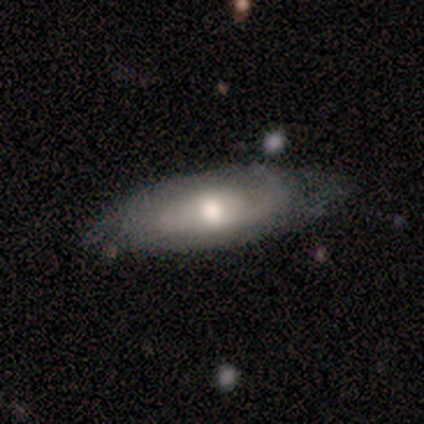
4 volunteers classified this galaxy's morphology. Volunteers were most divided on "smooth or featured" (2-way tie): smooth: 50%, featured or disk: 50%, star or artifact: 0%; "how rounded" (2-way tie): round: 50%, in between: 50%, cigar-shaped: 0%. More confident: merging — minor disturbance (75%).